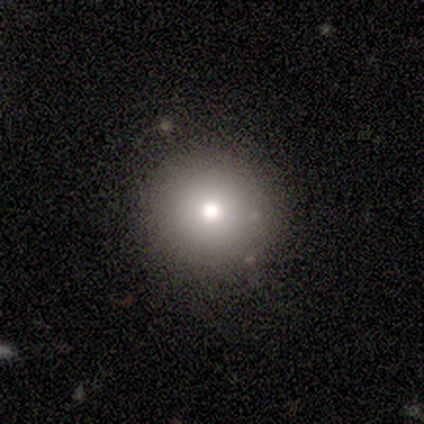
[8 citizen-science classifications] Overall: smooth (62%; star or artifact 38%). How rounded: round (100%). Merging: none (100%).